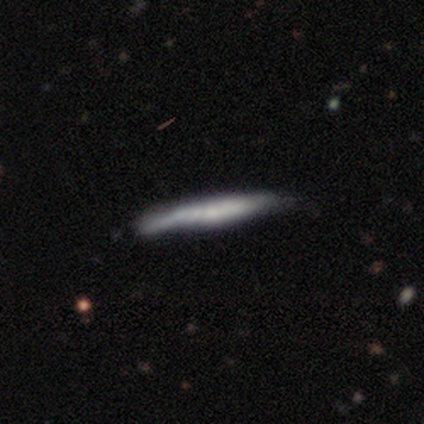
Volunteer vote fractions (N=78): A smooth galaxy with no disk features (54%) that is cigar-shaped (100%).

Vote fractions:
- Smooth or featured? smooth: 54% / featured or disk: 45% / star or artifact: 1%
- How rounded? cigar-shaped: 100% / round: 0% / in between: 0%
- Merging? none: 26% / minor disturbance: 22% / major disturbance: 1% / merger: 1%